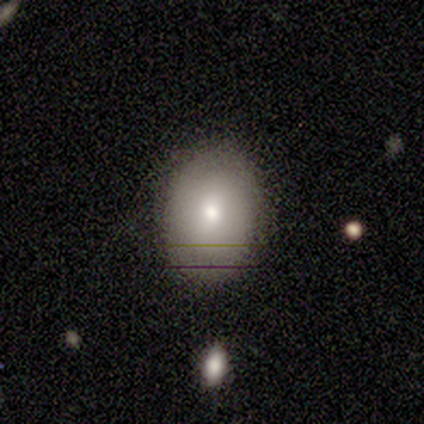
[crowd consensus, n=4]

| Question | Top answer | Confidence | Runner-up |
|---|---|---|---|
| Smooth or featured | smooth | 75% | star or artifact (25%) |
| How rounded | in between | 100% | — |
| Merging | none | 100% | — |